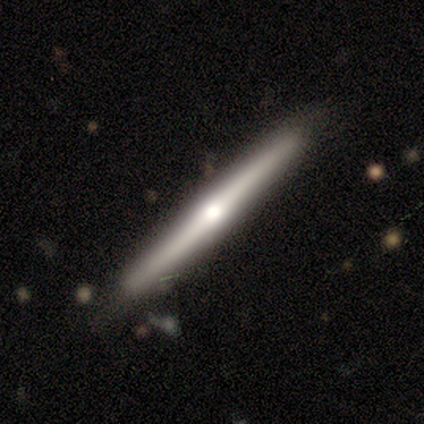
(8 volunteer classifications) This is likely a featured or disk galaxy (62%). It is clearly viewed edge-on (100%). Edge-on bulge: likely rounded (60%). Merging: clearly none (100%).